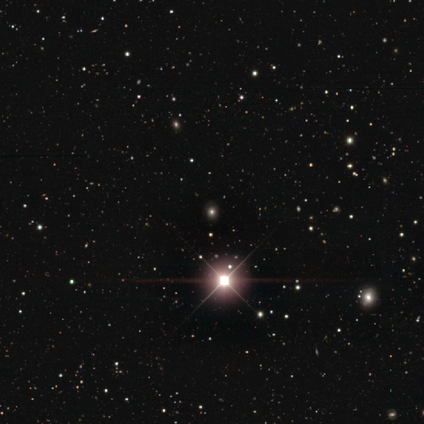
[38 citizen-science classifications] star or artifact 79%, smooth 13%, featured or disk 8%.